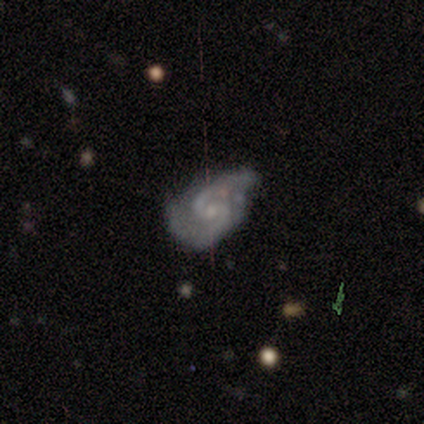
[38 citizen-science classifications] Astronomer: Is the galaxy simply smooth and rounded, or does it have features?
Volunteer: featured or disk — 97%.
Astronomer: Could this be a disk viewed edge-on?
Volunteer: no — 100%.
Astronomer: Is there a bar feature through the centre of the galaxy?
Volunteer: no — 51% (runner-up: weak, 43%).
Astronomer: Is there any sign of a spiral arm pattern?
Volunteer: yes — 97%.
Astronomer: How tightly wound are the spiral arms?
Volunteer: medium — 53%.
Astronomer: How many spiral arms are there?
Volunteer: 2 — 97%.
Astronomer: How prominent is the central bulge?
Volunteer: small — 62%.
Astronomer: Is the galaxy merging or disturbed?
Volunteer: none — 54%.